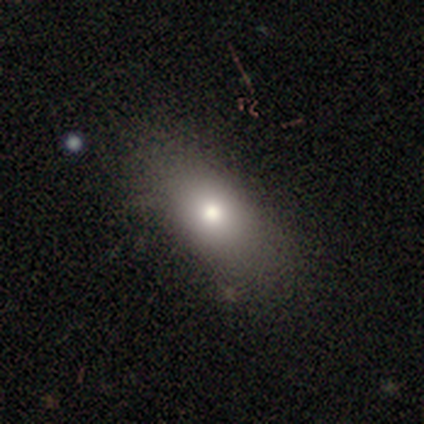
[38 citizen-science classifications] A smooth galaxy with no disk features (68%) that is in between round and cigar-shaped (85%).

Vote fractions:
- Smooth or featured? smooth: 68% / featured or disk: 16% / star or artifact: 16%
- How rounded? in between: 85% / round: 12% / cigar-shaped: 4%
- Merging? none: 84% / major disturbance: 9% / minor disturbance: 3% / merger: 3%